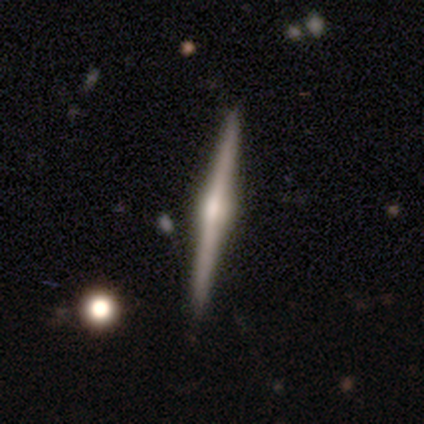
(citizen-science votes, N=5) A featured or disk galaxy (80%) viewed edge-on (100%) with a rounded central bulge (100%). Merging: none (100%).